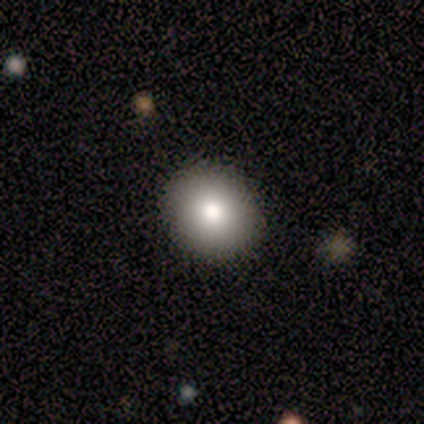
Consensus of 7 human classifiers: Volunteers were most divided on "how rounded": round: 83%, in between: 17%, cigar-shaped: 0%. More confident: merging — none (100%); smooth or featured — smooth (86%).